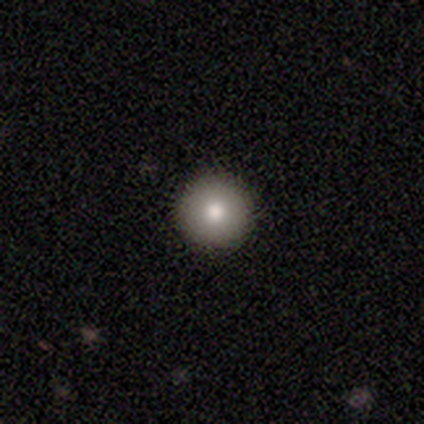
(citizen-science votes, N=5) Smooth or featured? 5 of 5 (100%) said smooth. How rounded? 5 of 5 (100%) said round. Merging? 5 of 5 (100%) said none.